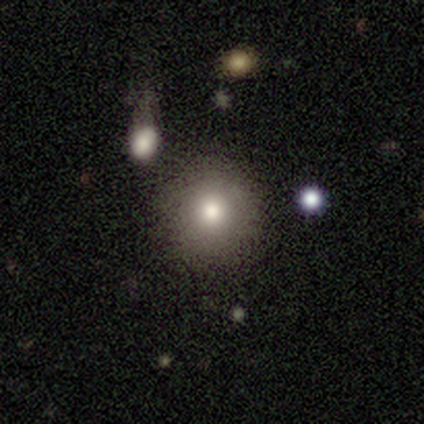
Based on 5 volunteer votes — Q: Smooth or featured?
A: smooth (100%)
Q: How rounded?
A: round (100%)
Q: Merging?
A: none (80%); runner-up: merger (20%)